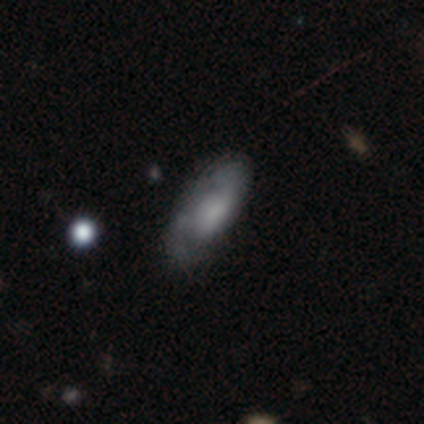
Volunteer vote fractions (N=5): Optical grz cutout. It shows a smooth galaxy with no disk features (80%) that is in between round and cigar-shaped (75%). Merging: none (40%, tied with major disturbance).